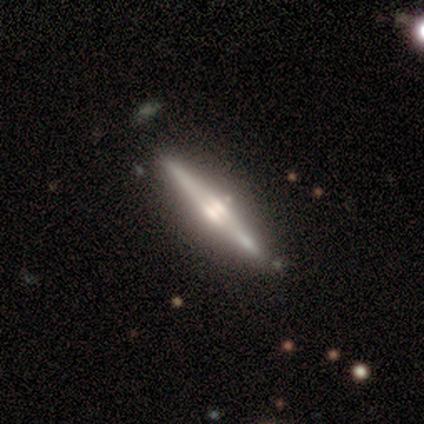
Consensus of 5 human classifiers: smooth-or-featured: smooth: 60% | featured or disk: 40% | star or artifact: 0%
  how-rounded: cigar-shaped: 100% | round: 0% | in between: 0%
  merging: none: 100% | minor disturbance: 0% | major disturbance: 0% | merger: 0%